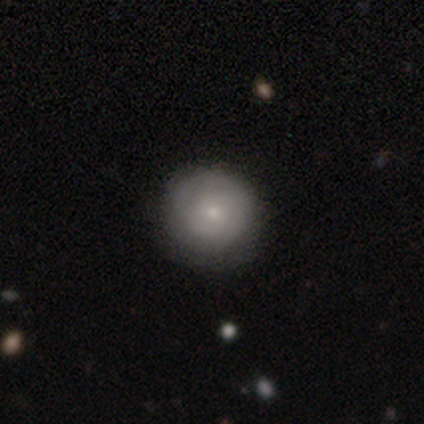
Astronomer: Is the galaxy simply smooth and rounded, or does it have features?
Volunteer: smooth — 52% (runner-up: featured or disk, 48%).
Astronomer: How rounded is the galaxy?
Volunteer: round — 98%.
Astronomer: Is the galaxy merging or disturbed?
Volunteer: none — 38%.